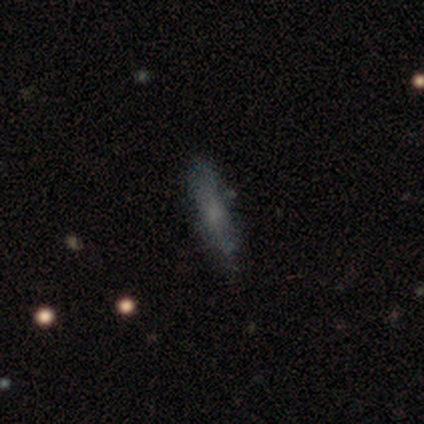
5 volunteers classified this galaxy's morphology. Q: Smooth or featured?
A: featured or disk (60%); runner-up: smooth (40%)
Q: Edge-on disk?
A: yes (100%)
Q: Edge-on bulge?
A: none (67%); runner-up: rounded (33%)
Q: Merging?
A: none (100%)